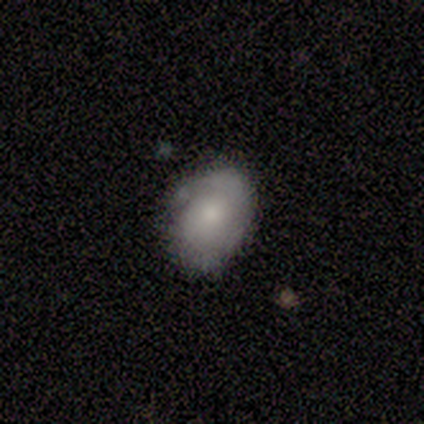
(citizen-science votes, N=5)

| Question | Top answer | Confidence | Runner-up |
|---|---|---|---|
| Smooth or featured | featured or disk | 60% | smooth (40%) |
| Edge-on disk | no | 100% | — |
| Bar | no | 100% | — |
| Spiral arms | yes | 67% | no (33%) |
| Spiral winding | tight | 100% | — |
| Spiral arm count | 1 | 100% | — |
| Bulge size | small | 67% | large (33%) |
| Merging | none | 80% | minor disturbance (20%) |